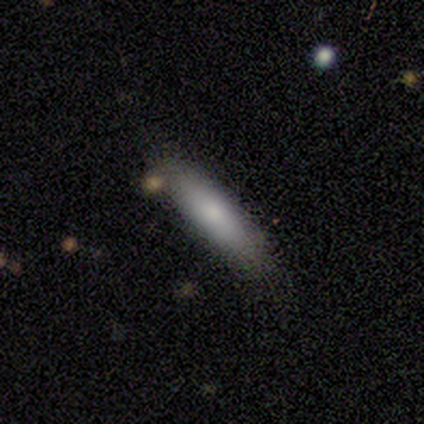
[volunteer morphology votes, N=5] smooth_or_featured: smooth (p=1.00)
how_rounded: cigar-shaped (p=1.00)
merging: none (p=0.80) [alt: minor disturbance p=0.20]